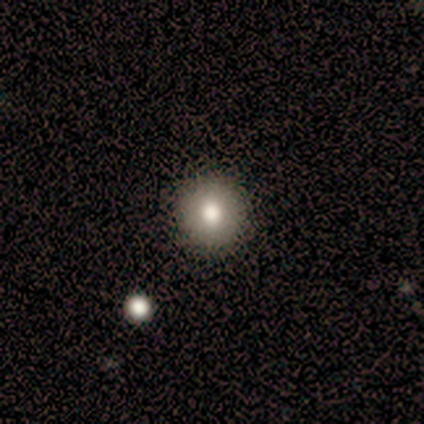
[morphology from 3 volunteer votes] Overall: smooth (67%; featured or disk 33%). How rounded: round (100%). Merging: minor disturbance (67%; none 33%).